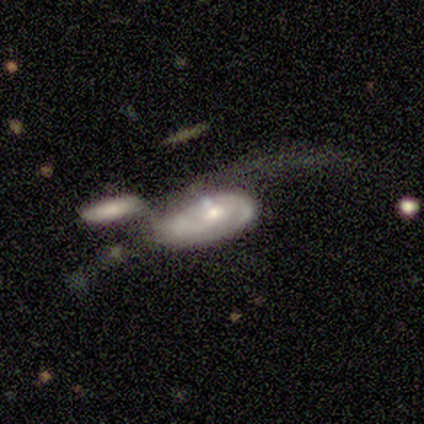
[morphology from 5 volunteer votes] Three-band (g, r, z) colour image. It shows a featured or disk galaxy (80%) with no bar (100%), 2 (50%) tight (50%, tied with medium) spiral arms (100%) and a moderate central bulge (50%, tied with small). Merging: merger (75%).